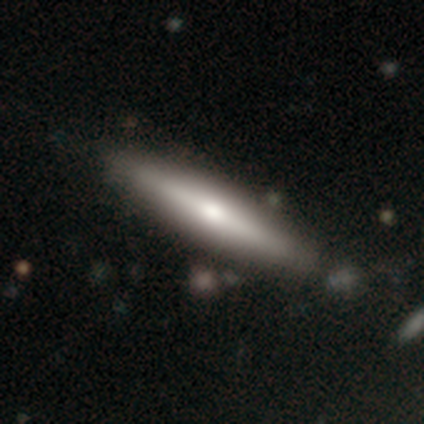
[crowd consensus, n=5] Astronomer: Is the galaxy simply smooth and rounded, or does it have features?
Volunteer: featured or disk — 100%.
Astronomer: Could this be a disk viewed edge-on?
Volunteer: yes — 100%.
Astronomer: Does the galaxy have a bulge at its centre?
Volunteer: rounded — 60%.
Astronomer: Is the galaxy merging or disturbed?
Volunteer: none — 80%.